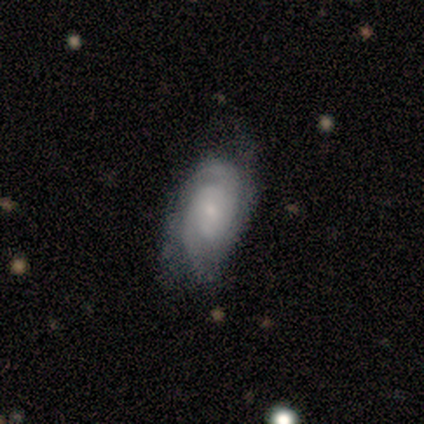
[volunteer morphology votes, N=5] Volunteers were most divided on "spiral winding" (2-way tie): tight: 50%, medium: 50%, loose: 0%. More confident: edge-on disk — no (100%); spiral arms — yes (100%); smooth or featured — featured or disk (80%); merging — none (80%); bar — no (75%); spiral arm count — 2 (75%); bulge size — small (75%).